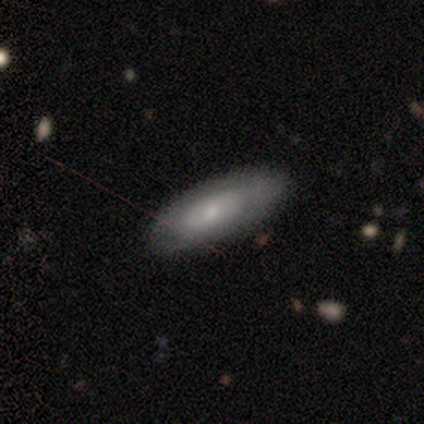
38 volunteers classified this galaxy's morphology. A featured or disk galaxy (53%) with no bar (76%), no spiral arms (76%) and a small central bulge (71%). Merging: none (49%).